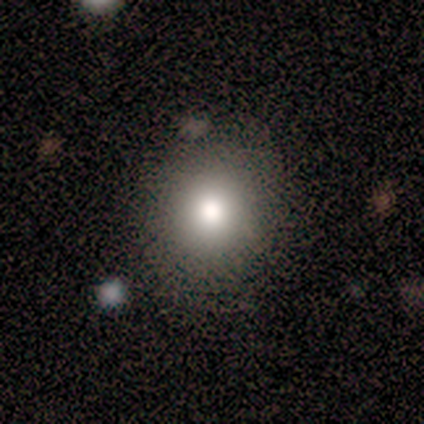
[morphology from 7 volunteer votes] A smooth galaxy with no disk features (86%) that is round (100%). Merging: none (83%).